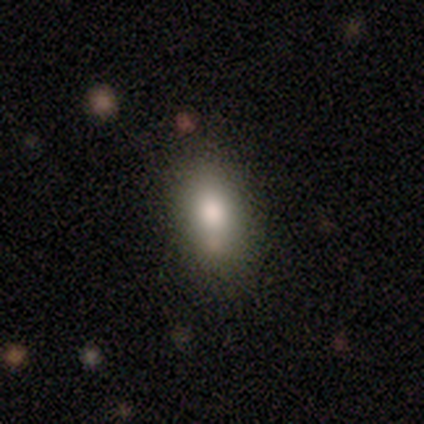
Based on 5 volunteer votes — Volunteers were most divided on "merging": none: 80%, minor disturbance: 20%, major disturbance: 0%, merger: 0%. More confident: smooth or featured — smooth (100%); how rounded — in between (100%).